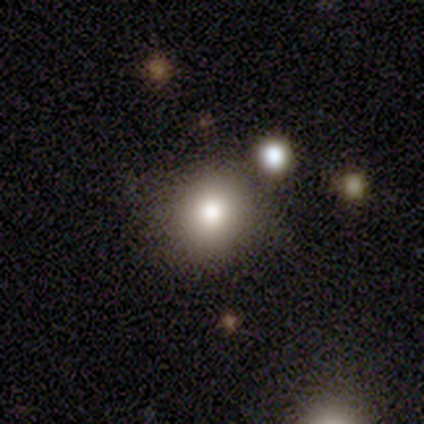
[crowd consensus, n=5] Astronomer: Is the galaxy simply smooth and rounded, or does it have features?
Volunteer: smooth — 80%.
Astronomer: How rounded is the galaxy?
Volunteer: round — 50%, tied with in between at 50%.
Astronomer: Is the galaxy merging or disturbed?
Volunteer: none — 40%, tied with merger at 40%.